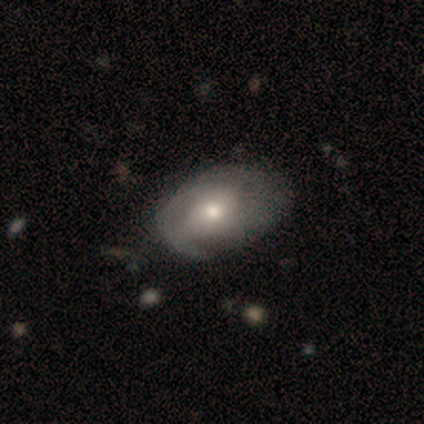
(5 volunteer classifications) Morphology: type=featured or disk (80%); edge-on=no (100%); bar=no (75%); spiral arms=no (75%); bulge=moderate (100%); merging=minor disturbance (60%).